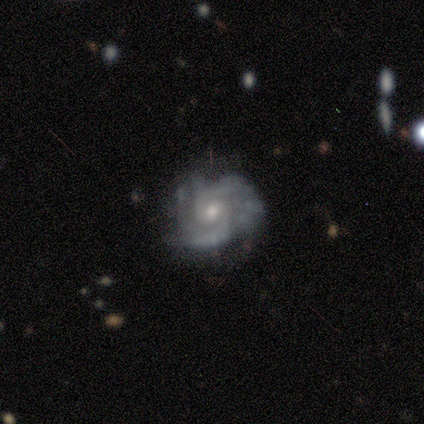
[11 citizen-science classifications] Q: Smooth or featured?
A: featured or disk (100%)
Q: Edge-on disk?
A: no (100%)
Q: Bar?
A: weak (45%); tied with: no (45%)
Q: Spiral arms?
A: yes (100%)
Q: Spiral winding?
A: medium (64%); runner-up: tight (27%)
Q: Spiral arm count?
A: 2 (55%); runner-up: 3 (27%)
Q: Bulge size?
A: moderate (55%); runner-up: small (45%)
Q: Merging?
A: none (45%); tied with: minor disturbance (45%)